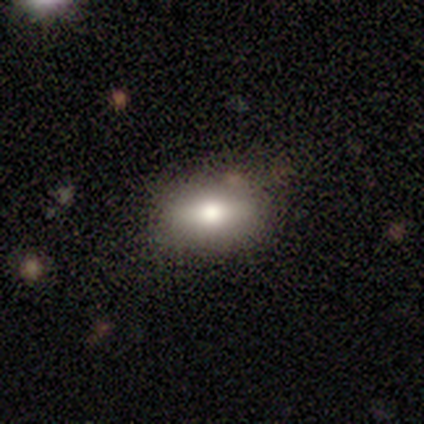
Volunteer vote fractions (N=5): This appears to be a smooth galaxy with no disk features (80%) that is in between round and cigar-shaped (100%). Merging: none (60%).